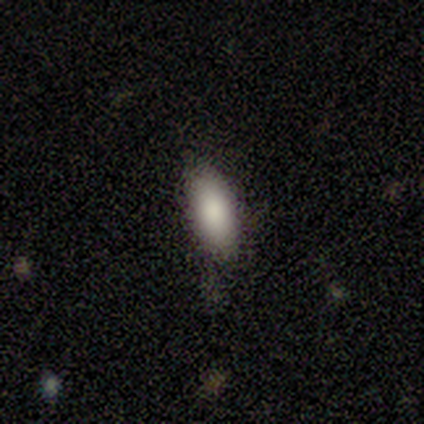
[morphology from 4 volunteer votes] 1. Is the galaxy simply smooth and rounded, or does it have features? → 100% smooth, 0% featured or disk, 0% star or artifact.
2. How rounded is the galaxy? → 50% in between (tied), 50% cigar-shaped (tied), 0% round.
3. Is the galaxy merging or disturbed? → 100% none, 0% minor disturbance, 0% major disturbance, 0% merger.